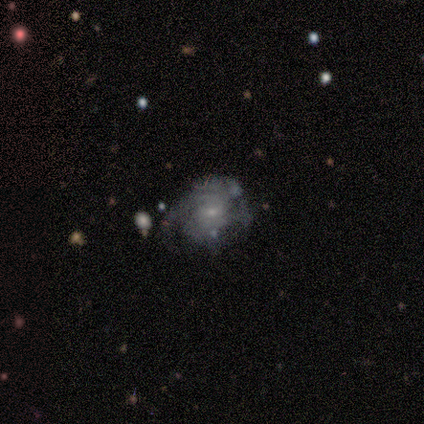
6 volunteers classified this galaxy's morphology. Smooth or featured? 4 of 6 (67%) said featured or disk. Edge-on disk? 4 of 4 (100%) said no. Bar? 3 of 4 (75%) said no. Spiral arms? 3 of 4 (75%) said yes. Spiral winding? 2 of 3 (67%) said tight. Spiral arm count? 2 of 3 (67%) said 4. Bulge size? 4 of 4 (100%) said small. Merging? 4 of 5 (80%) said none.